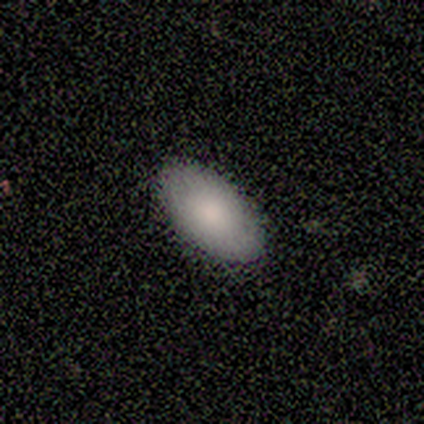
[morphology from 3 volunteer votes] Smooth or featured: smooth — 100%
How rounded: in between — 100%
Merging: none — 67% (major disturbance — 33%)